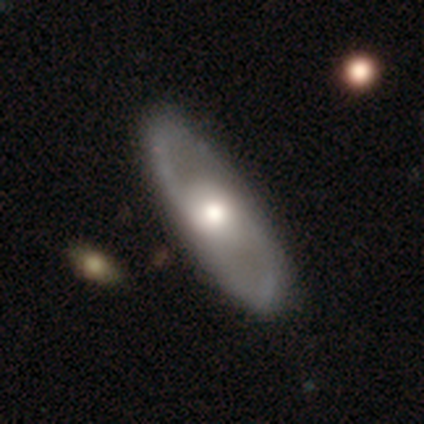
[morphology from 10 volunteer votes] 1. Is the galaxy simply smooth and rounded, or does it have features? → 90% featured or disk, 10% star or artifact, 0% smooth.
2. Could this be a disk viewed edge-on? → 89% no, 11% yes.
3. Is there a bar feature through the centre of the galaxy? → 88% no, 12% strong, 0% weak.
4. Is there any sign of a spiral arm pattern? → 62% yes, 38% no.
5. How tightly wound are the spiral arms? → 40% medium (tied), 40% loose (tied), 20% tight.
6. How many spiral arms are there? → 100% 2, 0% 1, 0% 3, 0% 4, 0% more than 4, 0% can't tell.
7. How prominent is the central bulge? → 88% moderate, 12% large, 0% dominant, 0% small, 0% none.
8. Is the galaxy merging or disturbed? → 89% none, 11% minor disturbance, 0% major disturbance, 0% merger.